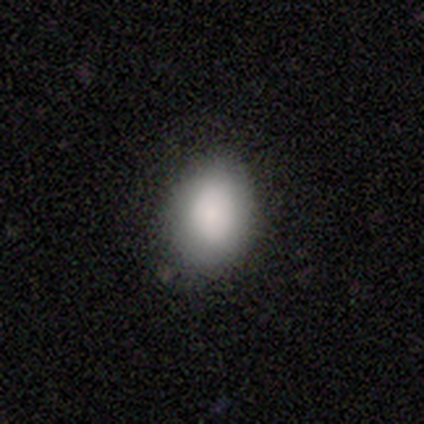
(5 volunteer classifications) Smooth or featured?
  - smooth: 80% *
  - featured or disk: 20%
  - star or artifact: 0%
How rounded?
  - in between: 75% *
  - round: 25%
  - cigar-shaped: 0%
Merging?
  - none: 80% *
  - minor disturbance: 20%
  - major disturbance: 0%
  - merger: 0%